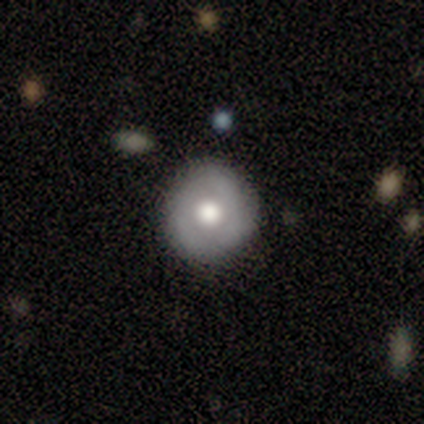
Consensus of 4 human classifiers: Volunteers were most divided on "bar": no: 67%, weak: 33%, strong: 0%. More confident: edge-on disk — no (100%); merging — none (100%); smooth or featured — featured or disk (75%); spiral arms — no (67%); bulge size — moderate (67%).